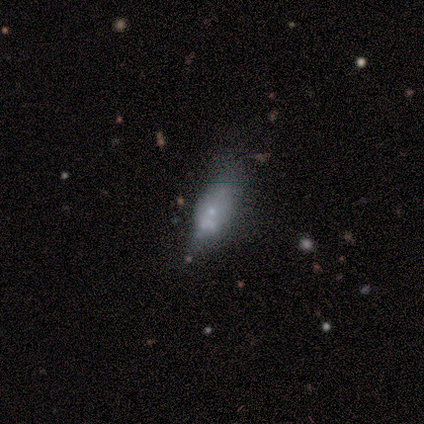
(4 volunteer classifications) This is likely a smooth galaxy (75%). How rounded: likely in between (67%). Merging: marginally none (33%, tied with minor disturbance and merger).